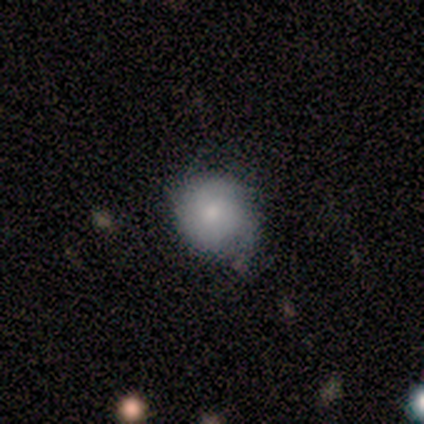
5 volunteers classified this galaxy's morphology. Overall: smooth (100%). How rounded: round (100%). Merging: none (80%).